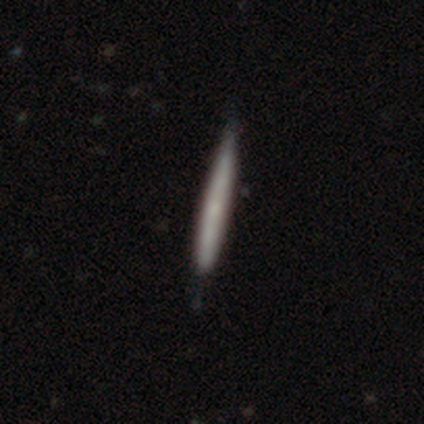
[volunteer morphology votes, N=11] Smooth or featured: smooth — 55% (featured or disk — 27%)
How rounded: cigar-shaped — 100%
Merging: none — 67% (minor disturbance — 22%)